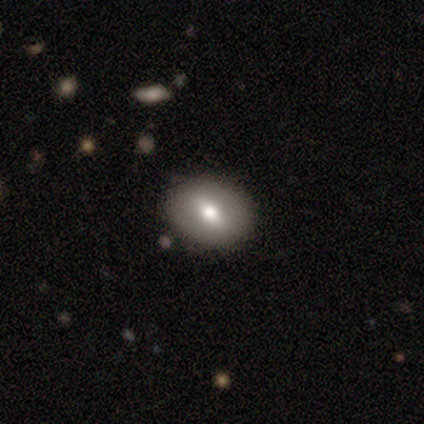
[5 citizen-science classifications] Smooth or featured? smooth (40%, tied with featured or disk)
How rounded? in between (100%)
Merging? none (100%)